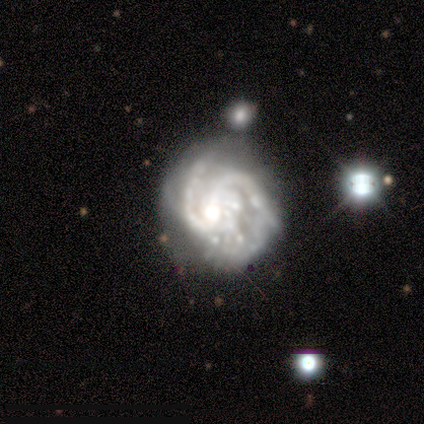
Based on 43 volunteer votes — Overall: featured or disk (95%). Edge-on disk: no (95%). Bar: no (59%; weak 31%). Spiral arms: yes (97%). Spiral arm count: 2 (63%). Spiral winding: medium (50%; tight 32%). Bulge size: moderate (56%; large 18%). Merging: none (54%; minor disturbance 27%).